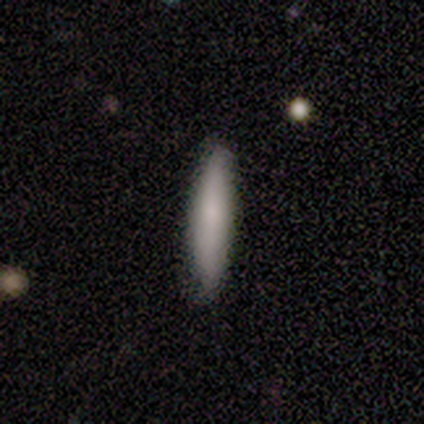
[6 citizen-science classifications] Volunteers were most divided on "smooth or featured": smooth: 83%, featured or disk: 17%, star or artifact: 0%. More confident: how rounded — cigar-shaped (100%); merging — none (83%).